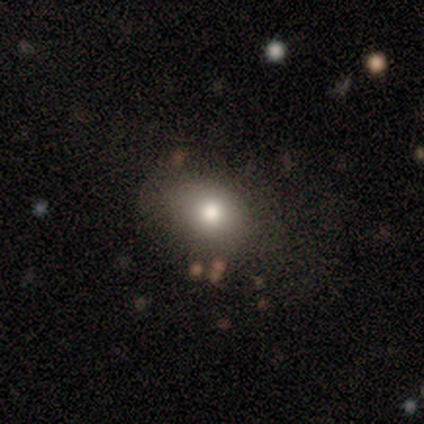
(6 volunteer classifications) Q: Smooth or featured?
A: smooth (67%); runner-up: star or artifact (33%)
Q: How rounded?
A: round (50%); tied with: in between (50%)
Q: Merging?
A: none (100%)